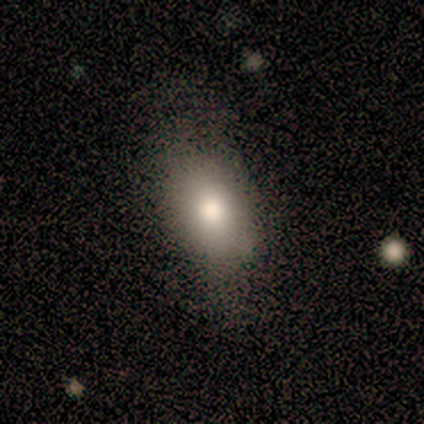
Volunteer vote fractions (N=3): Q: Smooth or featured?
A: smooth (67%); runner-up: featured or disk (33%)
Q: How rounded?
A: in between (100%)
Q: Merging?
A: none (67%); runner-up: minor disturbance (33%)